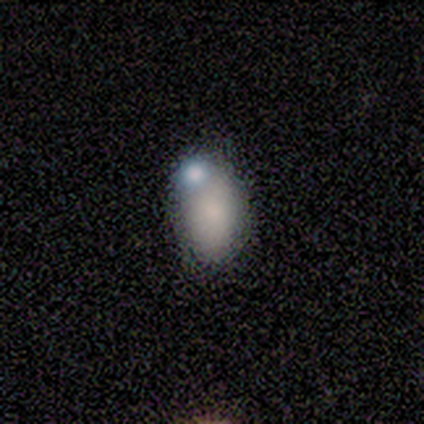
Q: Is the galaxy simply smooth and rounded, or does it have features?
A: smooth — 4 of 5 (80%).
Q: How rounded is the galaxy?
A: in between — 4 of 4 (100%).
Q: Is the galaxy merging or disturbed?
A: merger — 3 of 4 (75%).